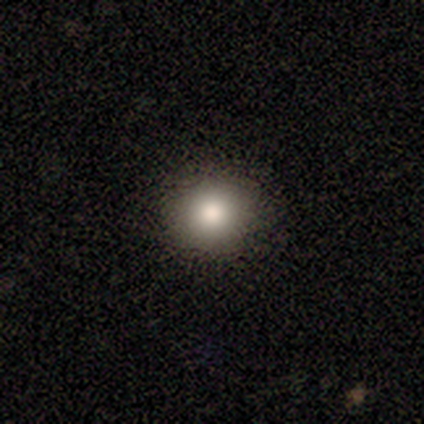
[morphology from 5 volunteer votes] A smooth galaxy with no disk features (60%) that is round (67%).

Vote fractions:
- Smooth or featured? smooth: 60% / star or artifact: 40% / featured or disk: 0%
- How rounded? round: 67% / in between: 33% / cigar-shaped: 0%
- Merging? none: 100% / minor disturbance: 0% / major disturbance: 0% / merger: 0%